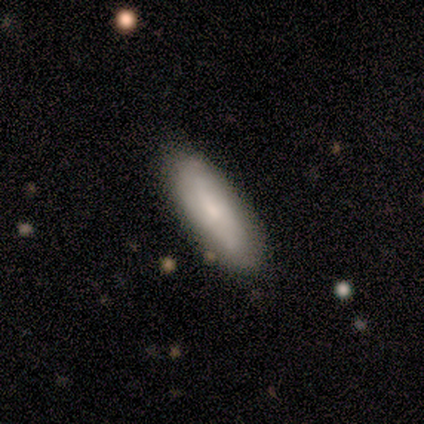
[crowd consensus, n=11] Smooth or featured: featured or disk — 55% (smooth — 45%)
Edge-on disk: no — 83% (yes — 17%)
Bar: no — 60% (weak — 40%)
Spiral arms: yes — 80% (no — 20%)
Spiral winding: loose — 50% (tight — 25%)
Spiral arm count: can't tell — 75% (2 — 25%)
Bulge size: small — 80% (moderate — 20%)
Merging: none — 100%